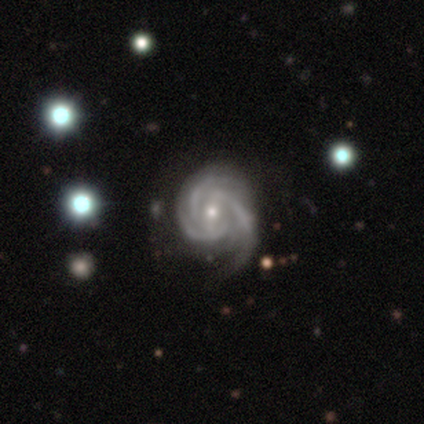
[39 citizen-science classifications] Smooth or featured? featured or disk (95%)
Edge-on disk? no (100%)
Bar? weak (46%)
Spiral arms? yes (100%)
Spiral winding? tight (68%)
Spiral arm count? 3 (62%)
Bulge size? small (65%)
Merging? none (59%)